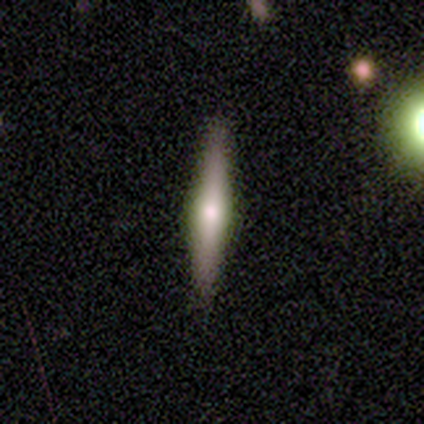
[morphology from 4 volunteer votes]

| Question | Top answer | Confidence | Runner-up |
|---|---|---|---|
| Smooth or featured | featured or disk | 75% | smooth (25%) |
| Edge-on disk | yes | 100% | — |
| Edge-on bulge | rounded | 100% | — |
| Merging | none | 75% | minor disturbance (25%) |